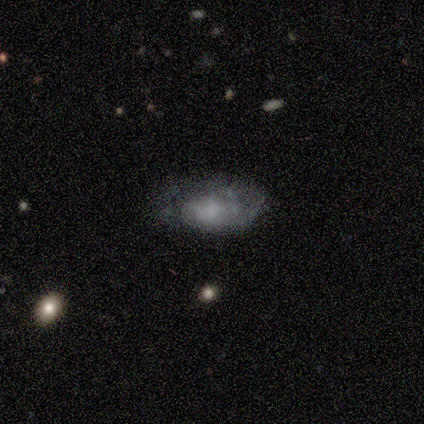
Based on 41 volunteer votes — Volunteers were most divided on "bulge size": none: 42%, small: 25%, moderate: 21%, large: 12%, dominant: 0%. Remaining: edge-on disk — no (96%); bar — no (83%); spiral winding — tight (67%); spiral arms — yes (62%); smooth or featured — featured or disk (61%); merging — none (60%); spiral arm count — can't tell (47%).